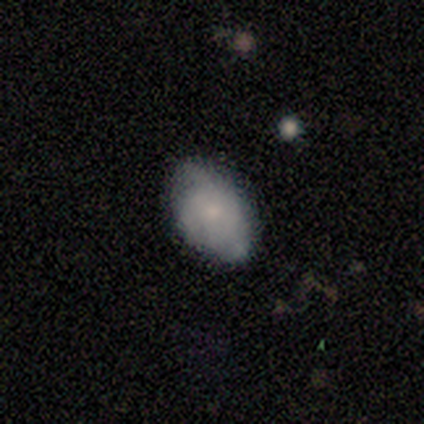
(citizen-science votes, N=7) A smooth galaxy with no disk features (71%) that is in between round and cigar-shaped (80%). Merging: none (71%).